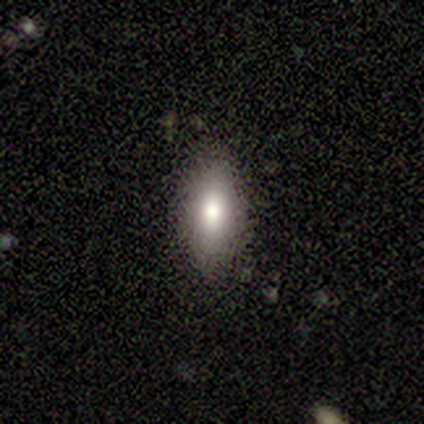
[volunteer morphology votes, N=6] Volunteers were most divided on "how rounded": in between: 80%, cigar-shaped: 20%, round: 0%. More confident: smooth or featured — smooth (83%); merging — none (83%).